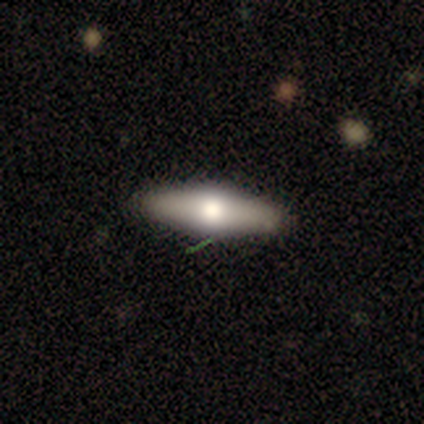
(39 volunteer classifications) Volunteers were most divided on "how rounded": cigar-shaped: 56%, in between: 44%, round: 0%. More confident: merging — none (89%); smooth or featured — smooth (64%).